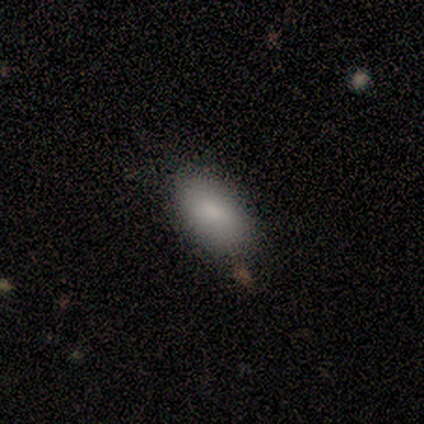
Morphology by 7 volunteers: Smooth or featured?
  - smooth: 100% *
  - featured or disk: 0%
  - star or artifact: 0%
How rounded?
  - in between: 100% *
  - round: 0%
  - cigar-shaped: 0%
Merging?
  - none: 100% *
  - minor disturbance: 0%
  - major disturbance: 0%
  - merger: 0%